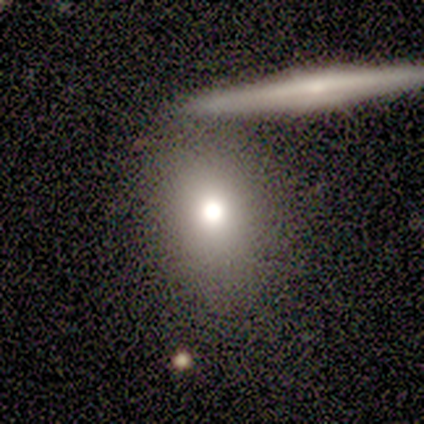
smooth_or_featured: featured or disk (p=0.40) [tied with: star or artifact p=0.40]
disk_edge_on: yes (p=0.50) [tied with: no p=0.50]
edge_on_bulge: rounded (p=1.00)
merging: none (p=0.33) [tied with: minor disturbance p=0.33, major disturbance p=0.33]